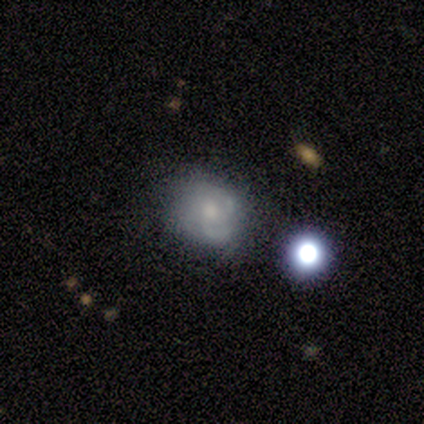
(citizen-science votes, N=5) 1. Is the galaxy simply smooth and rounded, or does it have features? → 40% featured or disk (tied), 40% star or artifact (tied), 20% smooth.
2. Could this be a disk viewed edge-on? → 100% no, 0% yes.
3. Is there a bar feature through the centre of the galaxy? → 50% weak (tied), 50% no (tied), 0% strong.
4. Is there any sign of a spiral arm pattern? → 100% yes, 0% no.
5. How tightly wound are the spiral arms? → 50% tight (tied), 50% medium (tied), 0% loose.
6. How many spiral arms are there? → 50% 2 (tied), 50% 3 (tied), 0% 1, 0% 4, 0% more than 4, 0% can't tell.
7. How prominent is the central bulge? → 50% moderate (tied), 50% small (tied), 0% dominant, 0% large, 0% none.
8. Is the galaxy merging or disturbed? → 100% none, 0% minor disturbance, 0% major disturbance, 0% merger.